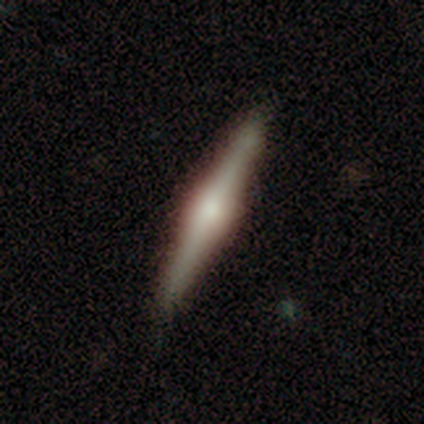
smooth_or_featured: featured or disk (p=0.60) [alt: smooth p=0.40]
disk_edge_on: yes (p=1.00)
edge_on_bulge: rounded (p=1.00)
merging: none (p=0.40) [tied with: minor disturbance p=0.40]